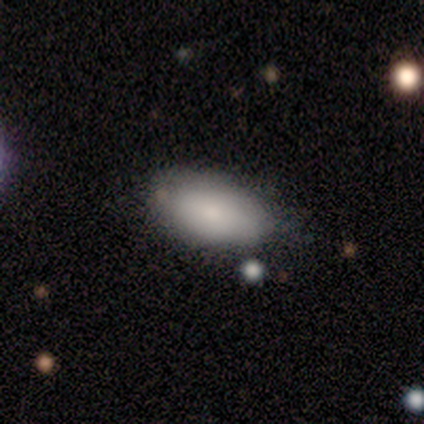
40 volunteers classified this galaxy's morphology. This appears to be a smooth galaxy with no disk features (75%) that is in between round and cigar-shaped (90%). Merging: none (63%).